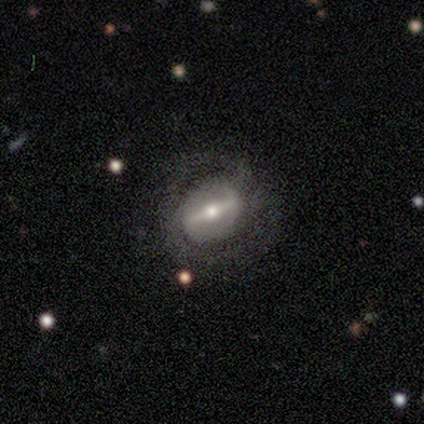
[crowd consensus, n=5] A featured or disk galaxy (80%) viewed edge-on (50%, tied with no) with a boxy central bulge (50%, tied with rounded). Merging: none (75%).